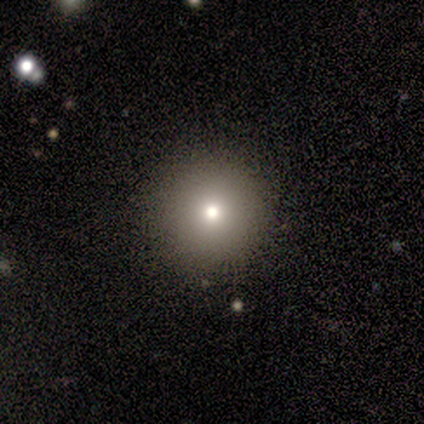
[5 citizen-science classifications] Smooth or featured? smooth (80%)
How rounded? round (100%)
Merging? none (80%)